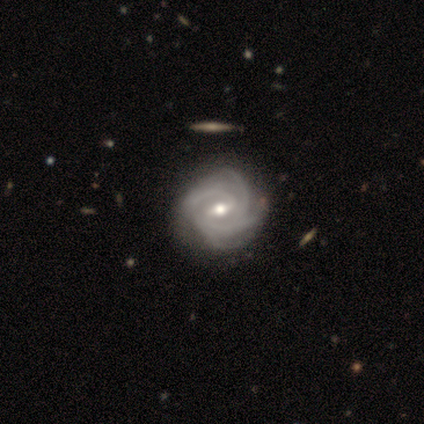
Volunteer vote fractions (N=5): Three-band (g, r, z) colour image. It shows a featured or disk galaxy (100%) with a weak bar (100%), 4 (100%) medium (60%) spiral arms (100%) and a moderate central bulge (80%). Merging: none (80%).